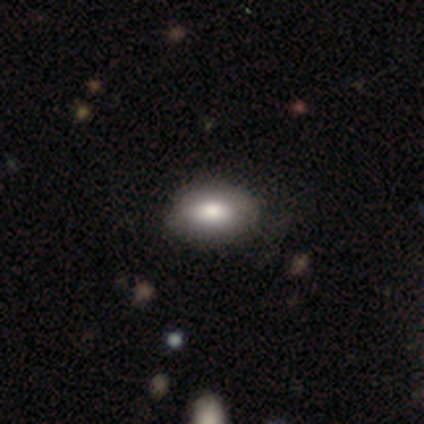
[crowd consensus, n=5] Morphology: type=smooth (60%); roundness=in between (100%); merging=none (100%).